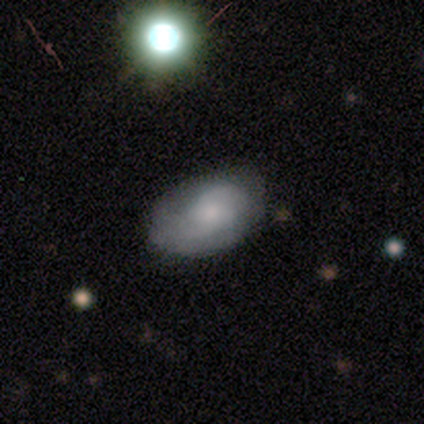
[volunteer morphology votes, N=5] This is likely a featured or disk galaxy (60%). It is clearly not viewed edge-on (100%). Bar: clearly no (100%). Spiral arm pattern: clearly yes (100%). Spiral arm count: likely can't tell (67%). Spiral winding: likely tight (67%). Central bulge: likely small (67%). Merging: clearly none (80%).